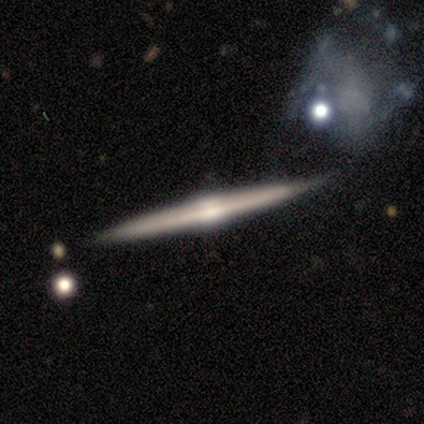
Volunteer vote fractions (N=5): smooth_or_featured: featured or disk (p=0.60) [alt: smooth p=0.40]
disk_edge_on: yes (p=1.00)
edge_on_bulge: rounded (p=1.00)
merging: none (p=1.00)